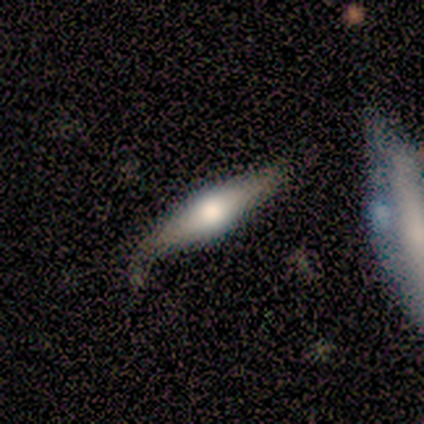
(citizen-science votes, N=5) smooth 100%, featured or disk 0%, star or artifact 0%. Down the decision tree: how rounded — cigar-shaped (100%); merging — none (80%).